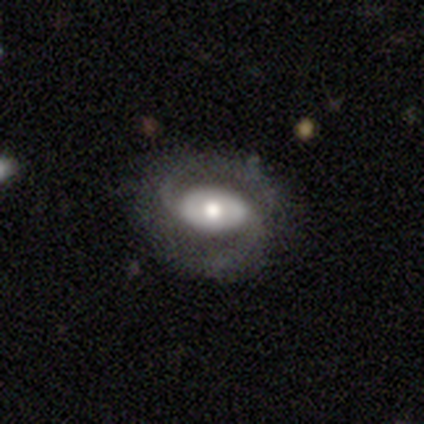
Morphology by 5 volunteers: Smooth or featured: featured or disk — 80% (smooth — 20%)
Edge-on disk: no — 100%
Bar: weak — 75% (no — 25%)
Spiral arms: yes — 100%
Spiral winding: medium — 75% (loose — 25%)
Spiral arm count: 2 — 100%
Bulge size: moderate — 50% (large — 25%)
Merging: none — 80% (minor disturbance — 20%)